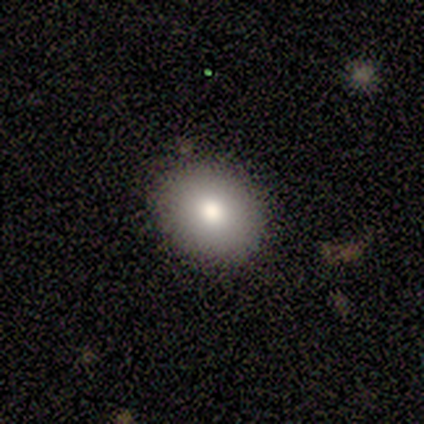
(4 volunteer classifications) smooth_or_featured: smooth (p=1.00)
how_rounded: round (p=0.50) [tied with: in between p=0.50]
merging: none (p=0.75) [alt: minor disturbance p=0.25]